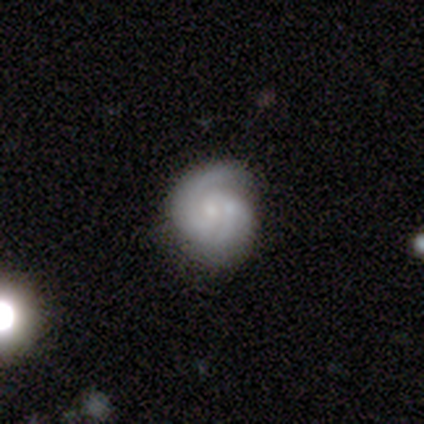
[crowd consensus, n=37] This appears to be a featured or disk galaxy (81%) with no bar (77%), 2 (77%) tight (57%) spiral arms (100%) and a small central bulge (70%). Merging: none (67%).